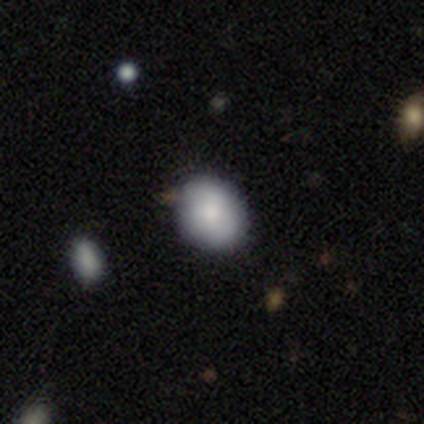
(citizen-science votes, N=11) smooth-or-featured: smooth: 82% | featured or disk: 9% | star or artifact: 9%
  how-rounded: in between: 67% | round: 33% | cigar-shaped: 0%
  merging: none: 100% | minor disturbance: 0% | major disturbance: 0% | merger: 0%